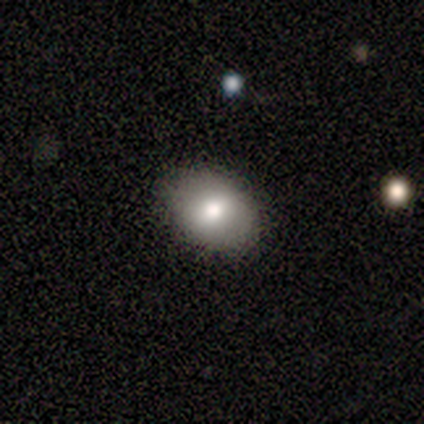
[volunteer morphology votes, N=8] smooth_or_featured: smooth (p=1.00)
how_rounded: in between (p=0.62) [alt: round p=0.38]
merging: none (p=0.88) [alt: major disturbance p=0.12]